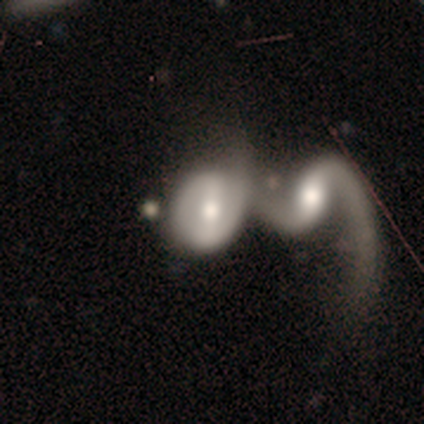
Overall: featured or disk (89%). Edge-on disk: no (100%). Bar: weak (62%; strong 25%). Spiral arms: yes (62%; no 38%). Spiral arm count: 2 (60%; 1 40%). Spiral winding: loose (60%; tight 20%). Bulge size: moderate (62%; small 25%). Merging: merger (78%).